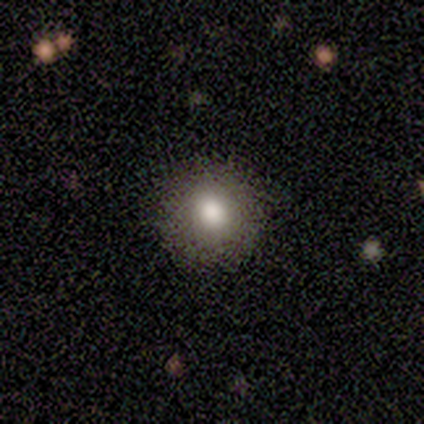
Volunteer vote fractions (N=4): Overall: smooth (75%). How rounded: round (100%). Merging: none (67%; minor disturbance 33%).